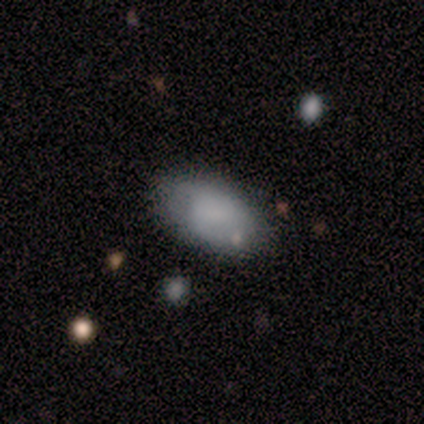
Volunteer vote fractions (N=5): Smooth or featured: smooth — 80% (star or artifact — 20%)
How rounded: in between — 100%
Merging: minor disturbance — 50% (none — 25%)